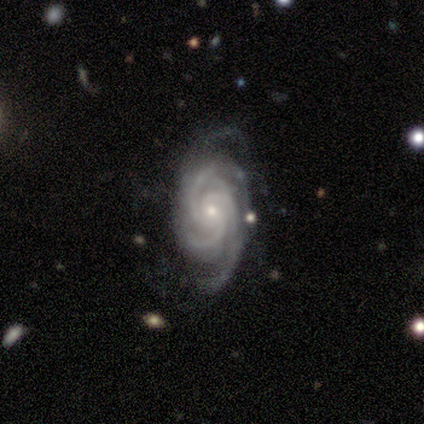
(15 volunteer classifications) smooth_or_featured: featured or disk (p=1.00)
disk_edge_on: no (p=1.00)
bar: no (p=0.93) [alt: strong p=0.07]
has_spiral_arms: yes (p=1.00)
spiral_winding: tight (p=0.60) [alt: medium p=0.40]
spiral_arm_count: 3 (p=0.73) [alt: 4 p=0.13]
bulge_size: small (p=0.93) [alt: moderate p=0.07]
merging: none (p=0.60) [alt: minor disturbance p=0.27]